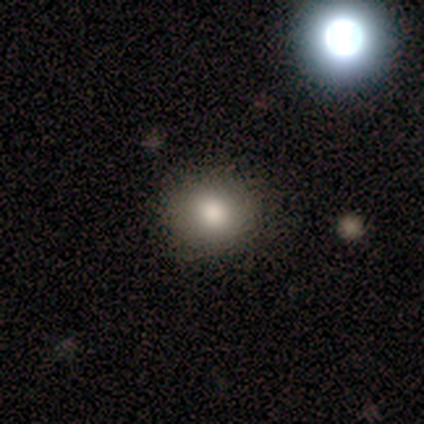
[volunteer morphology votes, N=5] This appears to be a smooth galaxy with no disk features (80%) that is round (100%). Merging: none (100%).